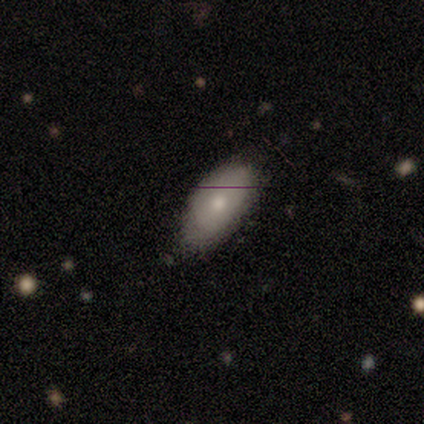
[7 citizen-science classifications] A smooth galaxy with no disk features (71%) that is in between round and cigar-shaped (80%).

Vote fractions:
- Smooth or featured? smooth: 71% / featured or disk: 29% / star or artifact: 0%
- How rounded? in between: 80% / round: 20% / cigar-shaped: 0%
- Merging? none: 86% / minor disturbance: 14% / major disturbance: 0% / merger: 0%